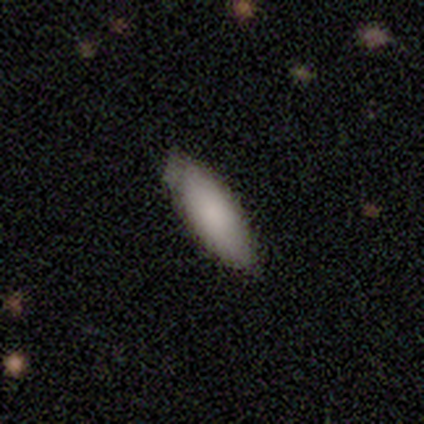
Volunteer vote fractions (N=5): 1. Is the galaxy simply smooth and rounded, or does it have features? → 80% smooth, 20% featured or disk, 0% star or artifact.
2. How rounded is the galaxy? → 75% in between, 25% cigar-shaped, 0% round.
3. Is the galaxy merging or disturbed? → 100% none, 0% minor disturbance, 0% major disturbance, 0% merger.